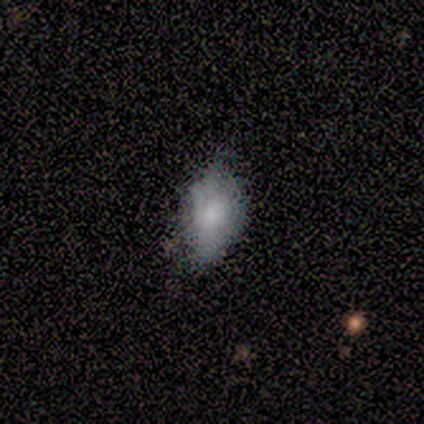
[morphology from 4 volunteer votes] type=smooth (50%, tied with featured or disk); roundness=in between (50%, tied with cigar-shaped); merging=minor disturbance (75%).